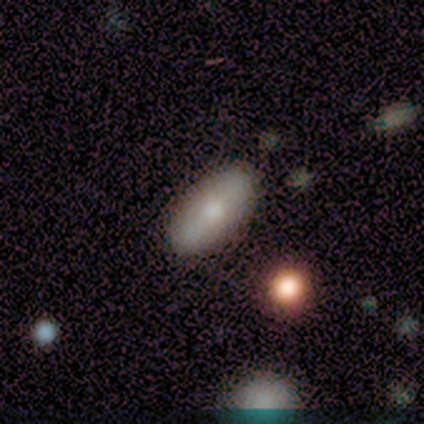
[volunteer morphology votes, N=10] Smooth or featured?
  - smooth: 80% *
  - featured or disk: 10%
  - star or artifact: 10%
How rounded?
  - in between: 62% *
  - cigar-shaped: 38%
  - round: 0%
Merging?
  - none: 100% *
  - minor disturbance: 0%
  - major disturbance: 0%
  - merger: 0%